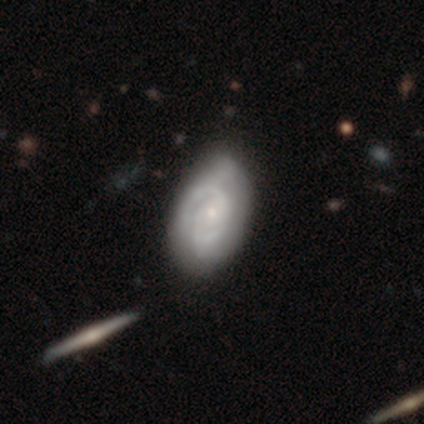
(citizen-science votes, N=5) Volunteers were most divided on "bar": weak: 60%, no: 40%, strong: 0%. More confident: smooth or featured — featured or disk (100%); edge-on disk — no (100%); spiral arms — yes (100%); merging — none (100%); bulge size — small (80%); spiral winding — tight (60%); spiral arm count — 2 (60%).